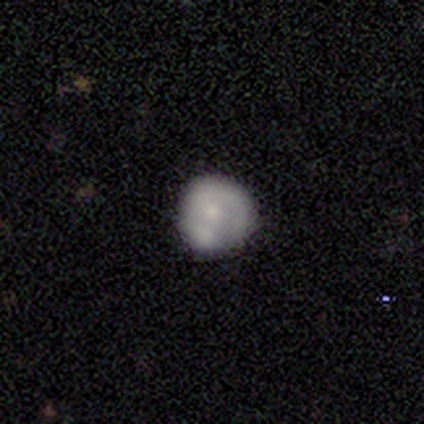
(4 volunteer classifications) This is likely a smooth galaxy (75%). How rounded: clearly round (100%). Merging: likely minor disturbance (75%).